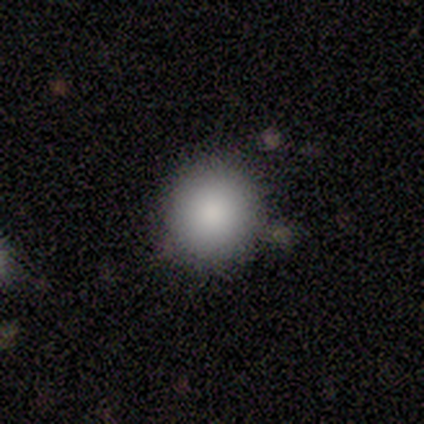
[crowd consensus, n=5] Smooth or featured? 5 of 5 (100%) said smooth. How rounded? 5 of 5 (100%) said round. Merging? 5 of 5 (100%) said none.